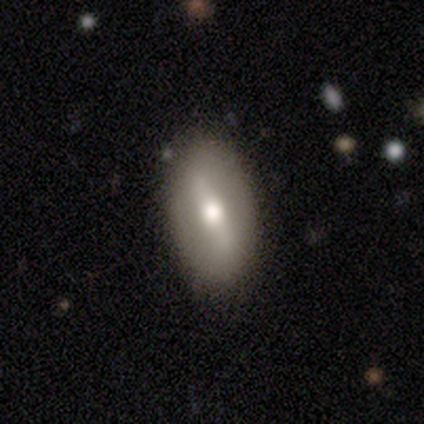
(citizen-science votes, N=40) smooth-or-featured: featured or disk: 57% | smooth: 42% | star or artifact: 0%
  disk-edge-on: no: 83% | yes: 17%
    bar: strong: 47% | weak: 42% | no: 11%
    has-spiral-arms: no: 63% | yes: 37%
    bulge-size: moderate: 74% | large: 21% | small: 5% | dominant: 0% | none: 0%
  merging: none: 62% | minor disturbance: 5% | major disturbance: 2% | merger: 2%